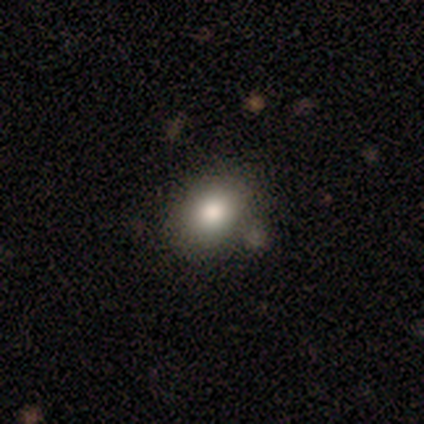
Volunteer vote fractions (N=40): Morphology: type=smooth (85%); roundness=in between (62%); merging=none (75%).